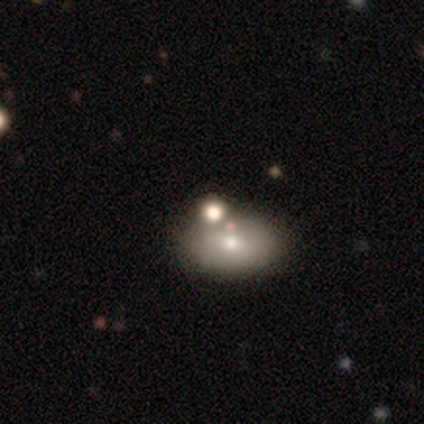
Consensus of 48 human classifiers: This is possibly a smooth galaxy (54%). How rounded: likely in between (77%). Merging: possibly none (56%).